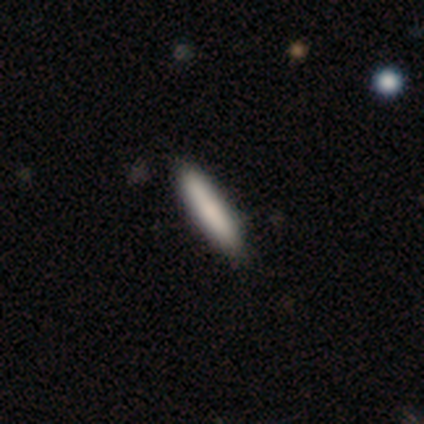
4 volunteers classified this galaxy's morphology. smooth 75%, featured or disk 25%, star or artifact 0%. Down the decision tree: how rounded — cigar-shaped (100%); merging — none (75%).